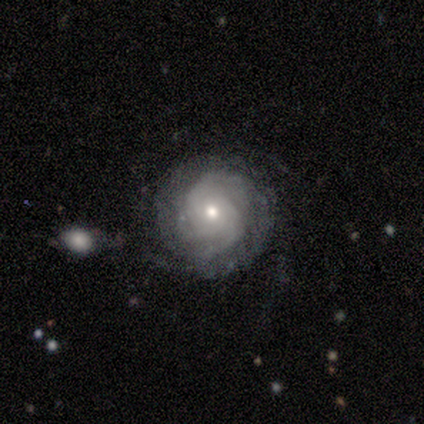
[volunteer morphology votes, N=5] Overall: featured or disk (100%). Edge-on disk: no (100%). Bar: no (100%). Spiral arms: yes (100%). Spiral arm count: can't tell (60%; 2 20%). Spiral winding: tight (80%). Bulge size: moderate (80%). Merging: none (80%).